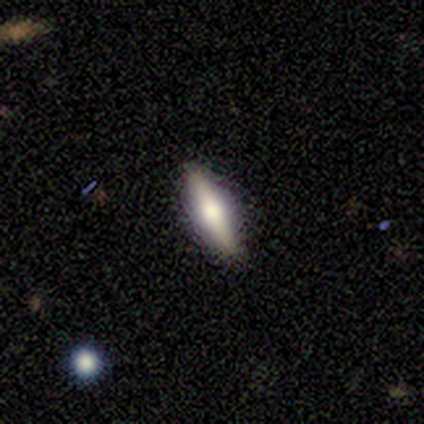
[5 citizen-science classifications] A featured or disk galaxy (60%) viewed edge-on (100%) with a rounded central bulge (100%).

Vote fractions:
- Smooth or featured? featured or disk: 60% / smooth: 40% / star or artifact: 0%
- Edge-on disk? yes: 100% / no: 0%
- Edge-on bulge? rounded: 100% / boxy: 0% / none: 0%
- Merging? none: 100% / minor disturbance: 0% / major disturbance: 0% / merger: 0%